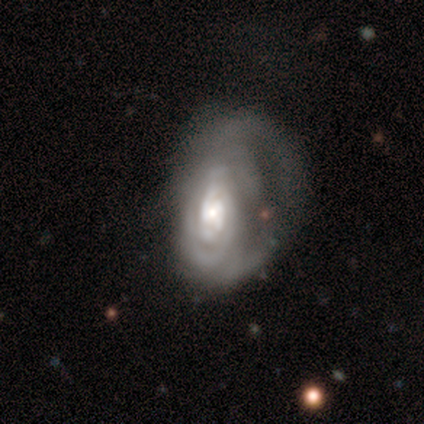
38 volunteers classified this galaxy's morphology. smooth-or-featured: featured or disk: 84% | smooth: 11% | star or artifact: 5%
  disk-edge-on: no: 100% | yes: 0%
    bar: no: 50% | weak: 38% | strong: 12%
    has-spiral-arms: yes: 84% | no: 16%
      spiral-winding: tight: 67% | medium: 19% | loose: 15%
      spiral-arm-count: can't tell: 67% | 2: 15% | 3: 15% | more than 4: 4% | 1: 0% | 4: 0%
    bulge-size: moderate: 50% | small: 31% | large: 19% | dominant: 0% | none: 0%
  merging: major disturbance: 44% | none: 33% | minor disturbance: 22% | merger: 0%